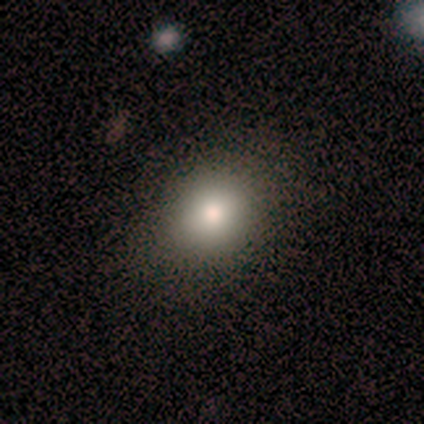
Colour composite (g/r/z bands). It shows a smooth galaxy with no disk features (60%) that is round (100%). Merging: none (80%).